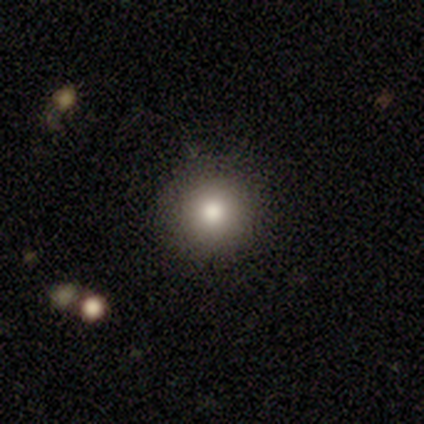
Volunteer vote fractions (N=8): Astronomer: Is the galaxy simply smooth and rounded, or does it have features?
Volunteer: smooth — 100%.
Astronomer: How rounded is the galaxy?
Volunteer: round — 88%.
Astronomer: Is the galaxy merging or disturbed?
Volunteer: none — 100%.